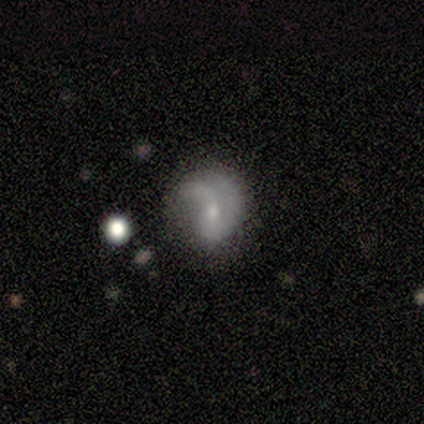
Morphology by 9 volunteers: This appears to be a featured or disk galaxy (56%) with no bar (100%), no spiral arms (60%) and a small central bulge (80%). Merging: major disturbance (67%).